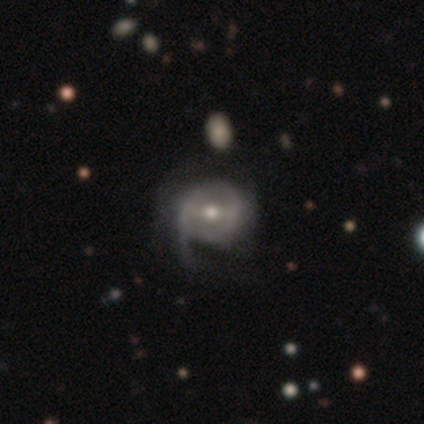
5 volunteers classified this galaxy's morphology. type=featured or disk (80%); edge-on=no (100%); bar=weak (50%); spiral arms=yes (100%); winding=loose (75%); arm count=1 (75%); bulge=small (75%); merging=major disturbance (60%).